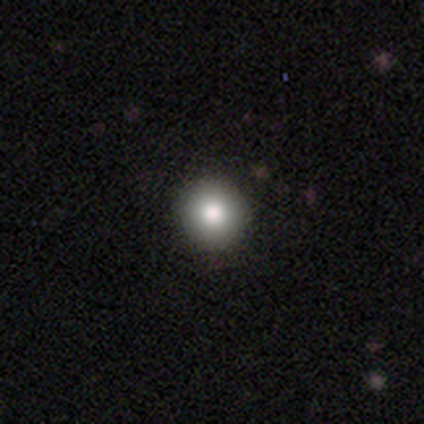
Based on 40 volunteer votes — This is clearly a smooth galaxy (98%). How rounded: clearly round (97%). Merging: likely none (78%).